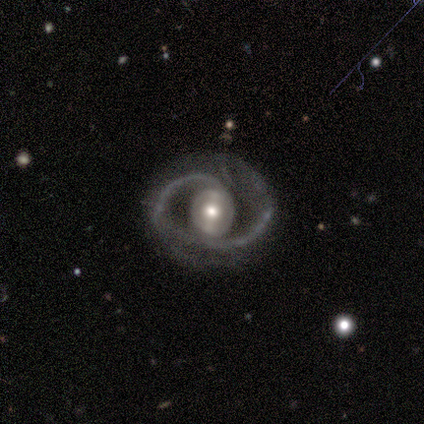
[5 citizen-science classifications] This is clearly a featured or disk galaxy (100%). It is clearly not viewed edge-on (100%). Bar: marginally weak (40%, tied with no). Spiral arm pattern: clearly yes (100%). Spiral arm count: likely 2 (60%). Spiral winding: likely tight (60%). Central bulge: marginally large (40%). Merging: clearly none (100%).